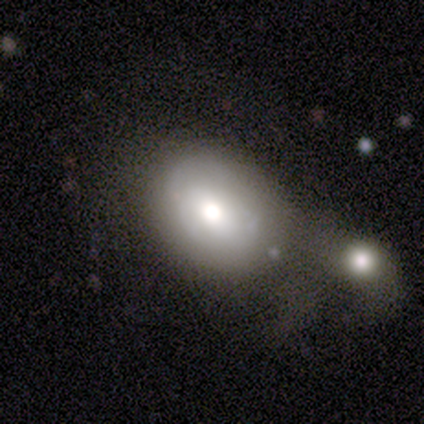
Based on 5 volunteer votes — This is clearly a smooth galaxy (80%). How rounded: likely round (75%). Merging: clearly none (80%).